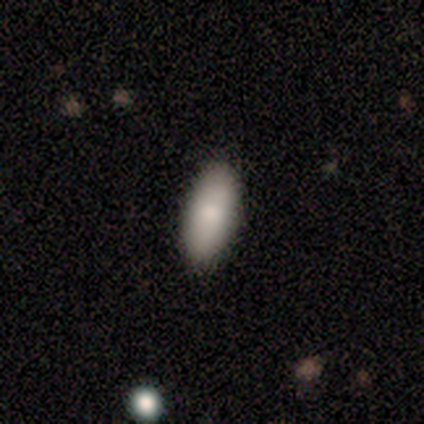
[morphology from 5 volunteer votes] Smooth or featured? smooth (60%)
How rounded? in between (100%)
Merging? none (100%)